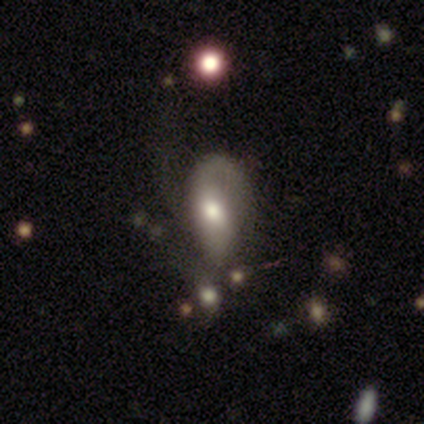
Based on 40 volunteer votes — Volunteers were most divided on "merging": major disturbance: 36%, minor disturbance: 33%, none: 19%, merger: 11%. Remaining: edge-on disk — no (100%); bar — no (84%); spiral arms — yes (79%); bulge size — moderate (63%); smooth or featured — featured or disk (48%); spiral winding — loose (47%); spiral arm count — 2 (33%).